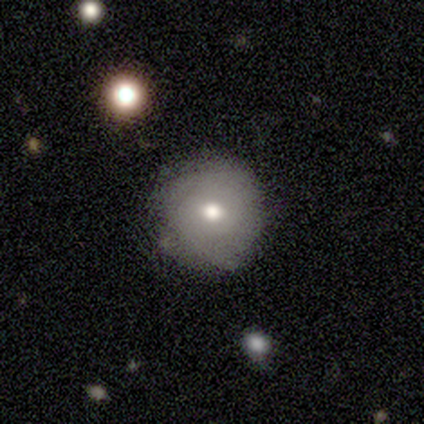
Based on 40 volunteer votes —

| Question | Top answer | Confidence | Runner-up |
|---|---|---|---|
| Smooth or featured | smooth | 62% | featured or disk (35%) |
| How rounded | round | 100% | — |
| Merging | none | 82% | minor disturbance (15%) |